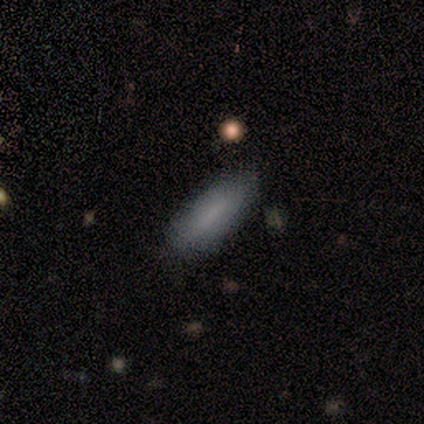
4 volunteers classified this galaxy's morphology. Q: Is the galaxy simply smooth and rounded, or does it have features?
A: smooth — 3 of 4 (75%).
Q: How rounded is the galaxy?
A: cigar-shaped — 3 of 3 (100%).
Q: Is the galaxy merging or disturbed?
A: none — 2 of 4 (50%, tied with minor disturbance).